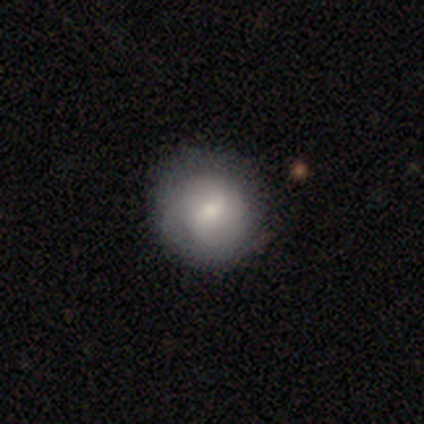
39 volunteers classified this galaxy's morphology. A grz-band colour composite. It shows a smooth galaxy with no disk features (69%) that is round (96%). Merging: none (79%).